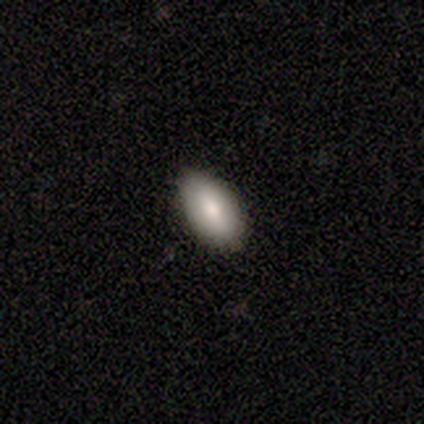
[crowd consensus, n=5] Overall: smooth (100%). How rounded: in between (60%; round 40%). Merging: none (80%).